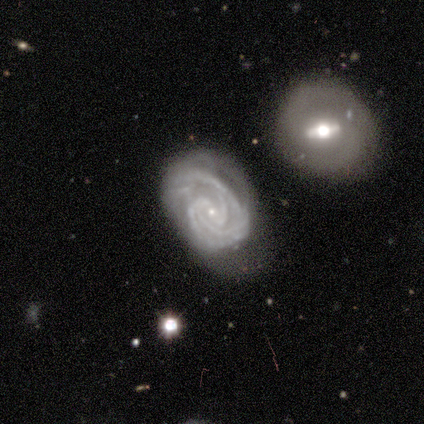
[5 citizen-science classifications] A featured or disk galaxy (100%) with a weak bar (40%, tied with no), 3 (80%) tight (100%) spiral arms (100%) and a small central bulge (100%). Merging: none (80%).